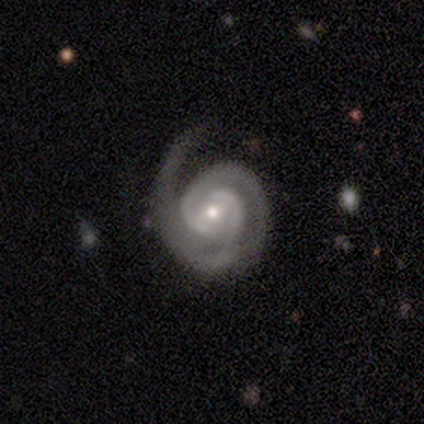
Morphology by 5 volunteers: smooth-or-featured: featured or disk: 100% | smooth: 0% | star or artifact: 0%
  disk-edge-on: no: 100% | yes: 0%
    bar: weak: 40% (tied) | no: 40% (tied) | strong: 20%
    has-spiral-arms: yes: 100% | no: 0%
      spiral-winding: tight: 80% | medium: 20% | loose: 0%
      spiral-arm-count: 2: 60% | 1: 20% | 3: 20% | 4: 0% | more than 4: 0% | can't tell: 0%
    bulge-size: small: 60% | moderate: 40% | dominant: 0% | large: 0% | none: 0%
  merging: none: 80% | minor disturbance: 20% | major disturbance: 0% | merger: 0%